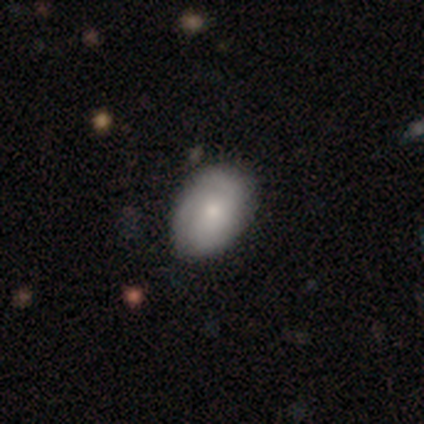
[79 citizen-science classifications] Q: Smooth or featured?
A: smooth (54%); runner-up: featured or disk (39%)
Q: How rounded?
A: in between (81%); runner-up: round (19%)
Q: Merging?
A: none (47%); runner-up: minor disturbance (8%)